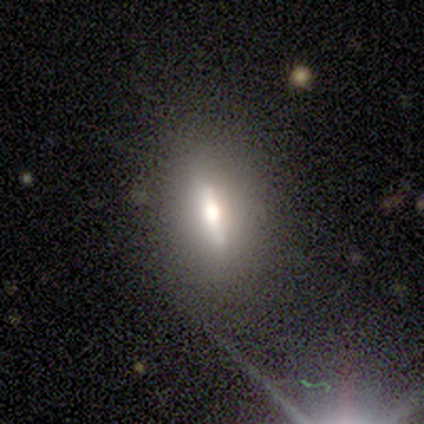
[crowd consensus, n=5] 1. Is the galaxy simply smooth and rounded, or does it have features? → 80% featured or disk, 20% star or artifact, 0% smooth.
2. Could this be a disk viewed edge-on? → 50% yes (tied), 50% no (tied).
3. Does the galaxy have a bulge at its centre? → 100% rounded, 0% boxy, 0% none.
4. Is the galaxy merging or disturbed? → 75% none, 25% minor disturbance, 0% major disturbance, 0% merger.